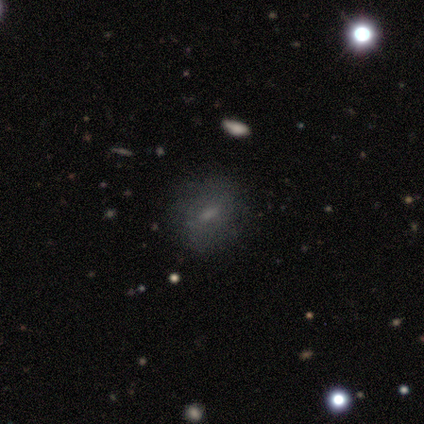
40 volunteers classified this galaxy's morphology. Smooth or featured?
  - smooth: 62% *
  - featured or disk: 28%
  - star or artifact: 10%
How rounded?
  - round: 64% *
  - in between: 32%
  - cigar-shaped: 4%
Merging?
  - none: 64% *
  - minor disturbance: 17%
  - major disturbance: 14%
  - merger: 6%